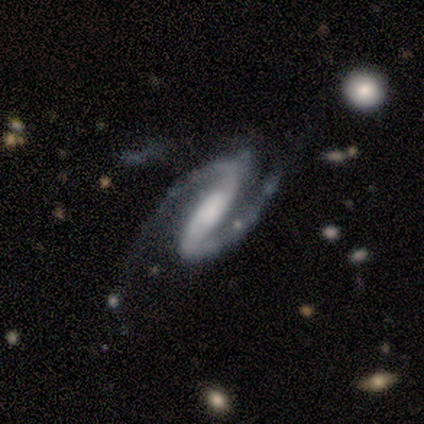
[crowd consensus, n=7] Smooth or featured?
  - featured or disk: 100% *
  - smooth: 0%
  - star or artifact: 0%
Edge-on disk?
  - no: 100% *
  - yes: 0%
Bar?
  - strong: 86% *
  - weak: 14%
  - no: 0%
Spiral arms?
  - yes: 100% *
  - no: 0%
Spiral winding?
  - medium: 57% *
  - tight: 43%
  - loose: 0%
Spiral arm count?
  - 2: 100% *
  - 1: 0%
  - 3: 0%
  - 4: 0%
  - more than 4: 0%
  - can't tell: 0%
Bulge size?
  - moderate: 57% *
  - large: 29%
  - small: 14%
  - dominant: 0%
  - none: 0%
Merging?
  - none: 57% *
  - minor disturbance: 43%
  - major disturbance: 0%
  - merger: 0%